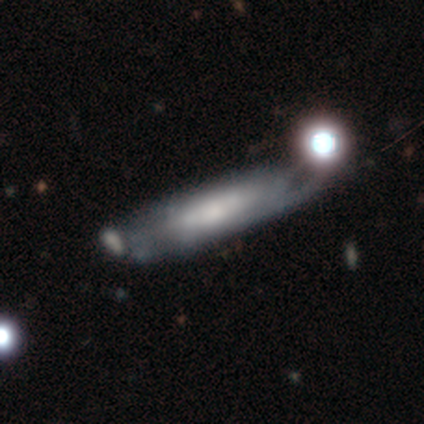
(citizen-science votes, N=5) A smooth galaxy with no disk features (60%) that is round (33%, tied with in between and cigar-shaped).

Vote fractions:
- Smooth or featured? smooth: 60% / featured or disk: 40% / star or artifact: 0%
- How rounded? round: 33% (tied) / in between: 33% (tied) / cigar-shaped: 33% (tied)
- Merging? minor disturbance: 40% (tied) / merger: 40% (tied) / none: 20% / major disturbance: 0%